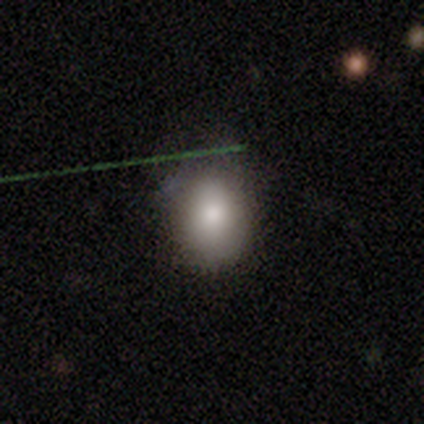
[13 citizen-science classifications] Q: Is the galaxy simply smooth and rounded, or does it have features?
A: smooth — 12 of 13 (92%).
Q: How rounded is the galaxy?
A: round — 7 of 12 (58%).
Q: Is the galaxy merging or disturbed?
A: none — 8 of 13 (62%).